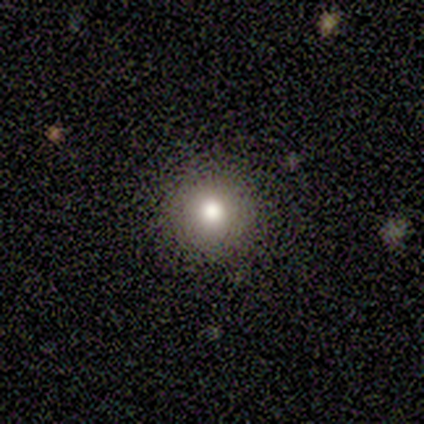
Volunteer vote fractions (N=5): This appears to be a smooth galaxy with no disk features (100%) that is round (100%). Merging: none (80%).